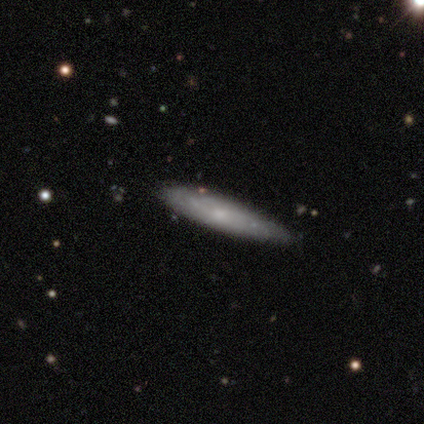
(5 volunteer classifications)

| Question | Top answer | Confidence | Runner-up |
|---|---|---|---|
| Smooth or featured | smooth | 40% | tied: featured or disk (40%) |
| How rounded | in between | 50% | tied: cigar-shaped (50%) |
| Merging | none | 100% | — |